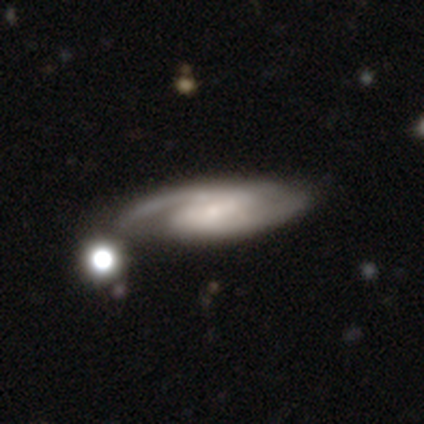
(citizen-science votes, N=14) Volunteers were most divided on "bar": weak: 42%, strong: 33%, no: 25%. More confident: spiral arms — yes (100%); smooth or featured — featured or disk (93%); edge-on disk — no (92%); spiral arm count — 2 (83%); merging — none (62%); spiral winding — medium (58%); bulge size — small (58%).